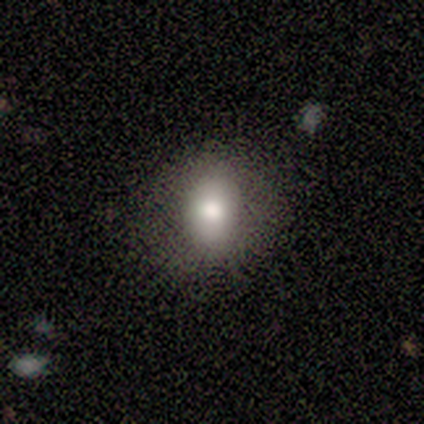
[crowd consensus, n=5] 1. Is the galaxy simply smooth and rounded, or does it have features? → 60% smooth, 40% featured or disk, 0% star or artifact.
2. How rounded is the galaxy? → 100% in between, 0% round, 0% cigar-shaped.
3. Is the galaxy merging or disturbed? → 80% none, 20% minor disturbance, 0% major disturbance, 0% merger.